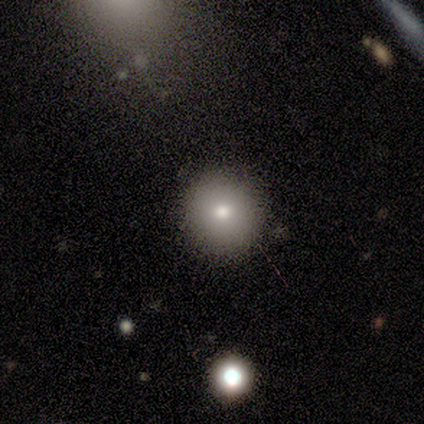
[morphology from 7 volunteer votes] Smooth or featured?
  - smooth: 86% *
  - star or artifact: 14%
  - featured or disk: 0%
How rounded?
  - round: 100% *
  - in between: 0%
  - cigar-shaped: 0%
Merging?
  - none: 67% *
  - minor disturbance: 33%
  - major disturbance: 0%
  - merger: 0%